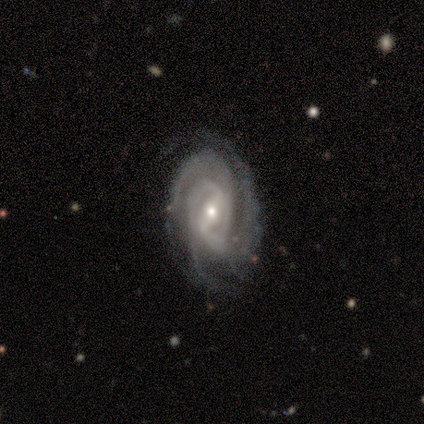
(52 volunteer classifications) Q: Smooth or featured?
A: featured or disk (96%); runner-up: smooth (4%)
Q: Edge-on disk?
A: no (98%); runner-up: yes (2%)
Q: Bar?
A: weak (43%); runner-up: strong (39%)
Q: Spiral arms?
A: yes (98%); runner-up: no (2%)
Q: Spiral winding?
A: tight (69%); runner-up: medium (25%)
Q: Spiral arm count?
A: 3 (52%); runner-up: 2 (25%)
Q: Bulge size?
A: small (69%); runner-up: moderate (29%)
Q: Merging?
A: none (75%); runner-up: minor disturbance (17%)